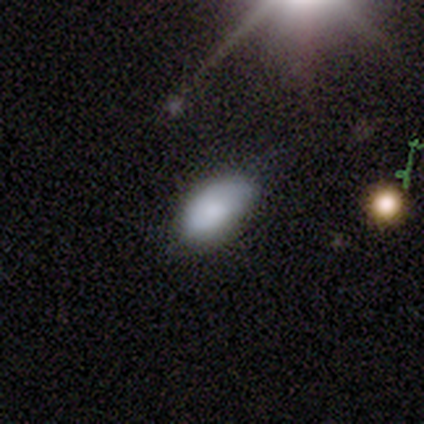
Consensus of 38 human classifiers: Smooth or featured?
  - smooth: 84% *
  - featured or disk: 8%
  - star or artifact: 8%
How rounded?
  - in between: 94% *
  - cigar-shaped: 6%
  - round: 0%
Merging?
  - none: 71% *
  - minor disturbance: 20%
  - merger: 6%
  - major disturbance: 3%